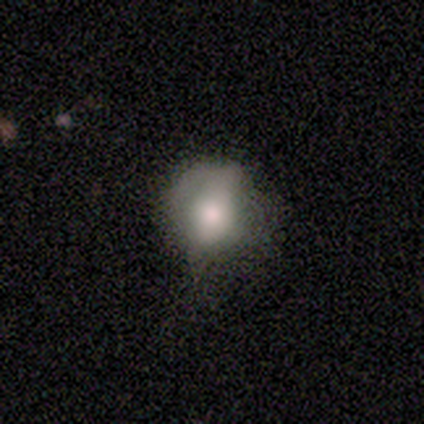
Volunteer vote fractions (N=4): This is likely a smooth galaxy (75%). How rounded: likely round (67%). Merging: possibly none (50%).